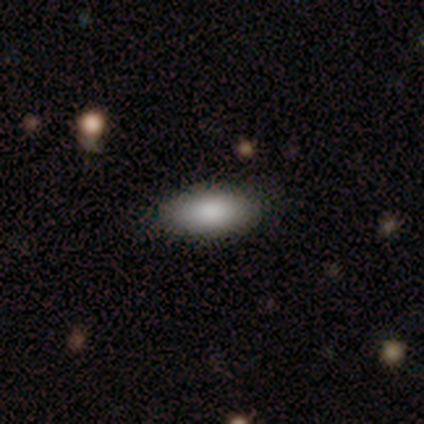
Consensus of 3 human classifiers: smooth-or-featured: smooth: 100% | featured or disk: 0% | star or artifact: 0%
  how-rounded: in between: 67% | cigar-shaped: 33% | round: 0%
  merging: none: 100% | minor disturbance: 0% | major disturbance: 0% | merger: 0%